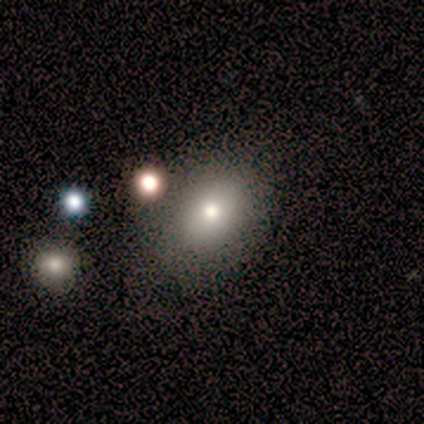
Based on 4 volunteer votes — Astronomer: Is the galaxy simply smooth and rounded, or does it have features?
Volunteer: smooth — 75%.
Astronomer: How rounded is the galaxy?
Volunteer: in between — 100%.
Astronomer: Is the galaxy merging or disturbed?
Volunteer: none — 100%.